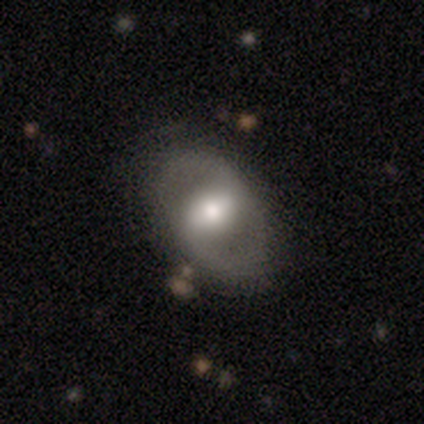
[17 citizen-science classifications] Smooth or featured: featured or disk — 59% (smooth — 41%)
Edge-on disk: no — 100%
Bar: strong — 60% (weak — 20%)
Spiral arms: yes — 80% (no — 20%)
Spiral winding: medium — 38% (tied with loose — 38%)
Spiral arm count: 2 — 100%
Bulge size: large — 50% (moderate — 40%)
Merging: none — 82% (minor disturbance — 12%)